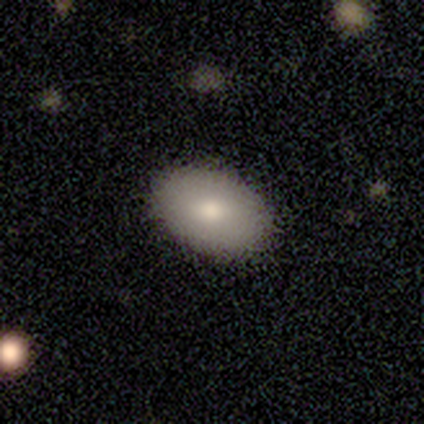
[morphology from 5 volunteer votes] smooth_or_featured: smooth (p=1.00)
how_rounded: in between (p=1.00)
merging: none (p=0.80) [alt: minor disturbance p=0.20]